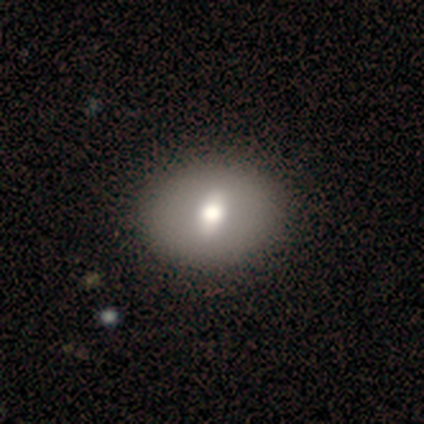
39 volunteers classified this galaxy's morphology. Smooth or featured?
  - smooth: 59% *
  - featured or disk: 38%
  - star or artifact: 3%
How rounded?
  - in between: 83% *
  - round: 17%
  - cigar-shaped: 0%
Merging?
  - none: 66% *
  - minor disturbance: 3%
  - merger: 3%
  - major disturbance: 0%